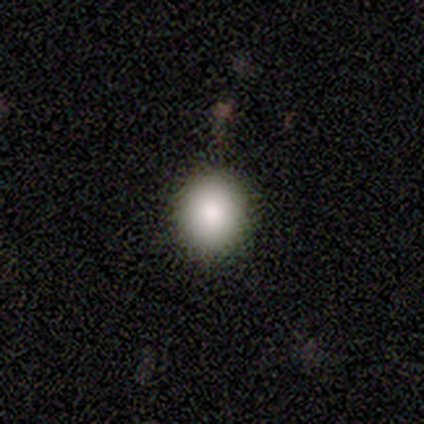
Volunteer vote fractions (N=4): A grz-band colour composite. It shows a smooth galaxy with no disk features (100%) that is round (100%). Merging: none (75%).